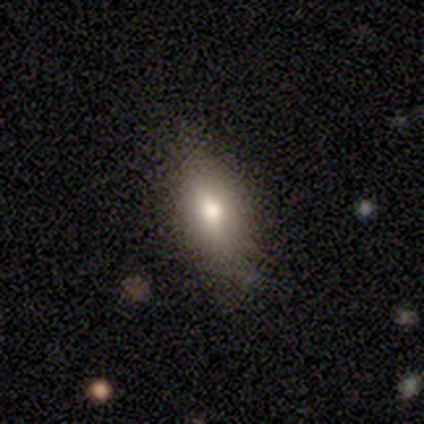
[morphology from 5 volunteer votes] This appears to be a smooth galaxy with no disk features (60%) that is in between round and cigar-shaped (100%). Merging: none (75%).